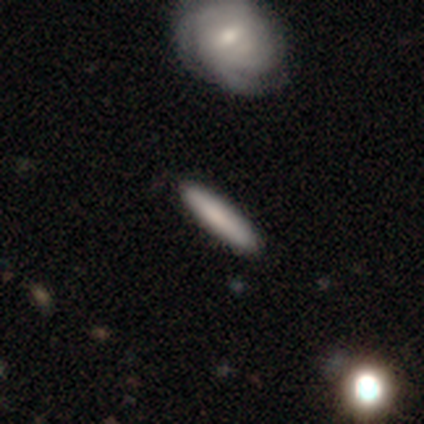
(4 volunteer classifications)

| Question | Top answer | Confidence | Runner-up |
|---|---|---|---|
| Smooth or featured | smooth | 50% | featured or disk (25%) |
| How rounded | in between | 50% | tied: cigar-shaped (50%) |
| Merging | none | 67% | minor disturbance (33%) |